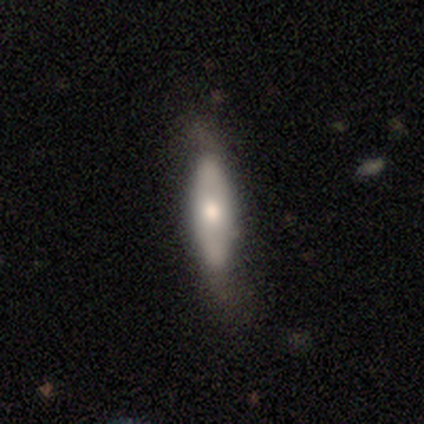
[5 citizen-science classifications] A featured or disk galaxy (60%) with a strong bar (33%, tied with weak and no), 2 (100%) tight (50%, tied with loose) spiral arms (67%) and a moderate central bulge (67%).

Vote fractions:
- Smooth or featured? featured or disk: 60% / smooth: 40% / star or artifact: 0%
- Edge-on disk? no: 100% / yes: 0%
- Bar? strong: 33% (tied) / weak: 33% (tied) / no: 33% (tied)
- Spiral arms? yes: 67% / no: 33%
- Spiral winding? tight: 50% (tied) / loose: 50% (tied) / medium: 0%
- Spiral arm count? 2: 100% / 1: 0% / 3: 0% / 4: 0% / more than 4: 0% / can't tell: 0%
- Bulge size? moderate: 67% / dominant: 33% / large: 0% / small: 0% / none: 0%
- Merging? minor disturbance: 60% / none: 40% / major disturbance: 0% / merger: 0%